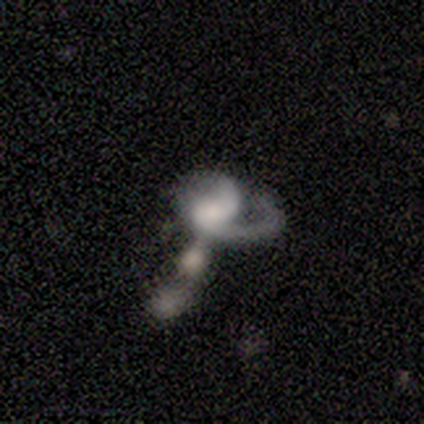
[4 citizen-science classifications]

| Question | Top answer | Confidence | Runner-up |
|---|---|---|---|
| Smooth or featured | featured or disk | 75% | star or artifact (25%) |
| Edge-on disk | no | 100% | — |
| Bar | strong | 33% | tied: weak (33%), no (33%) |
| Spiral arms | yes | 100% | — |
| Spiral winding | tight | 33% | tied: medium (33%), loose (33%) |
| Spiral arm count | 2 | 67% | 1 (33%) |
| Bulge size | large | 33% | tied: moderate (33%), none (33%) |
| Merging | major disturbance | 67% | minor disturbance (33%) |